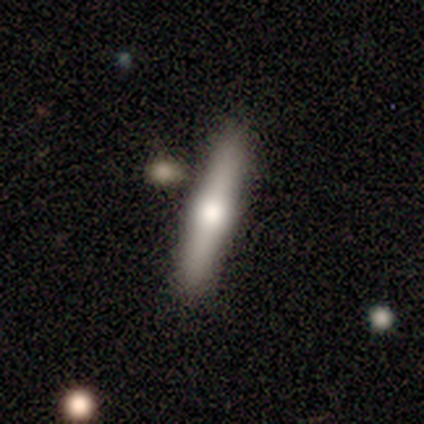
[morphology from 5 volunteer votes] smooth 60%, featured or disk 40%, star or artifact 0%. Down the decision tree: how rounded — cigar-shaped (67%); merging — none (80%).